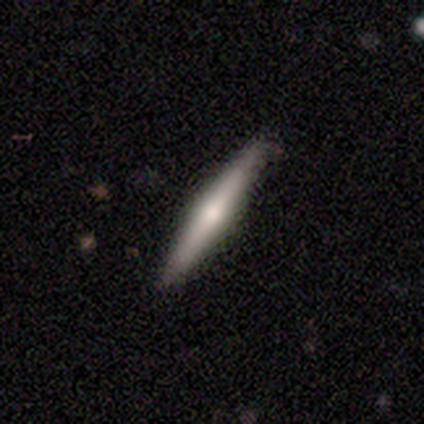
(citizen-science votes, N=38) smooth_or_featured: featured or disk (p=0.68) [alt: smooth p=0.32]
disk_edge_on: yes (p=0.96) [alt: no p=0.04]
edge_on_bulge: rounded (p=0.84) [alt: none p=0.12]
merging: none (p=0.92) [alt: minor disturbance p=0.08]